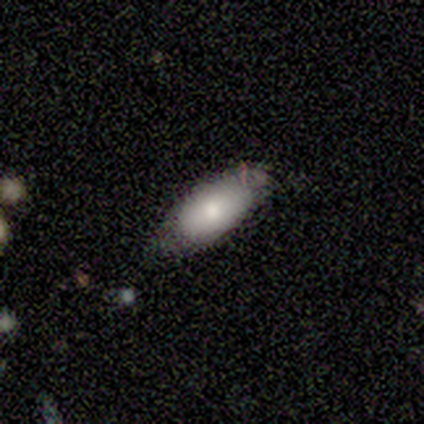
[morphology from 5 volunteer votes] A smooth galaxy with no disk features (100%) that is in between round and cigar-shaped (60%). Merging: none (80%).